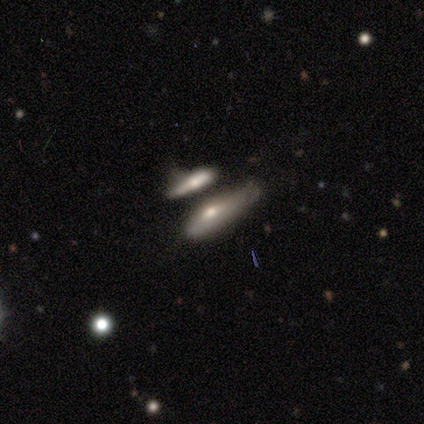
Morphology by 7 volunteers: A smooth galaxy with no disk features (43%, tied with featured or disk) that is cigar-shaped (67%). Merging: merger (50%).